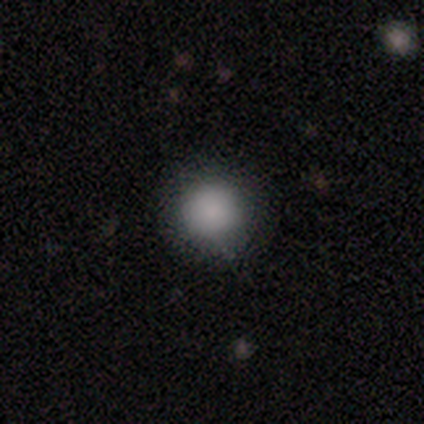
This appears to be a smooth galaxy with no disk features (100%) that is round (50%, tied with in between). Merging: none (50%, tied with minor disturbance).